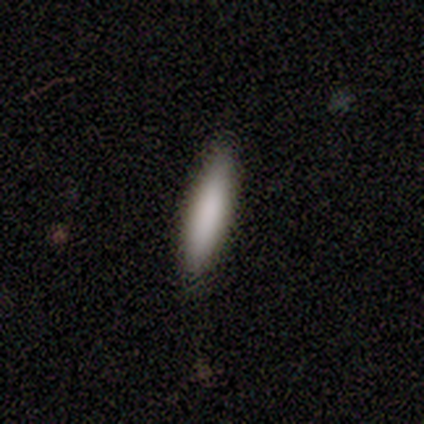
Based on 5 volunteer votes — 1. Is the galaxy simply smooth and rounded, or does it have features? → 80% smooth, 20% star or artifact, 0% featured or disk.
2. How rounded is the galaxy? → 100% cigar-shaped, 0% round, 0% in between.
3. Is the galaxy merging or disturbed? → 75% none, 25% minor disturbance, 0% major disturbance, 0% merger.